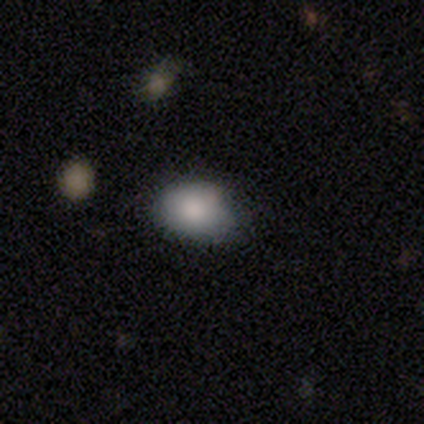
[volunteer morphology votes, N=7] Smooth or featured? smooth (71%)
How rounded? in between (80%)
Merging? none (60%)